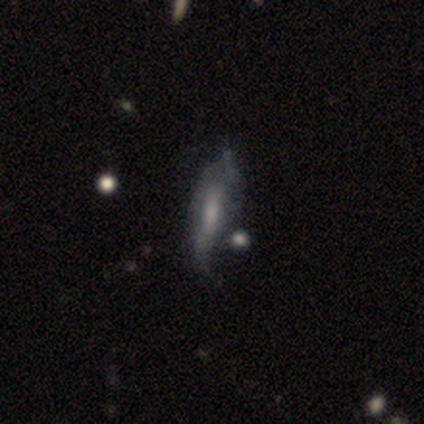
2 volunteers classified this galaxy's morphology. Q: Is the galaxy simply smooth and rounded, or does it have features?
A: smooth — 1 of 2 (50%, tied with featured or disk).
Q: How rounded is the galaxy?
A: in between — 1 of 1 (100%).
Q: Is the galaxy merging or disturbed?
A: none — 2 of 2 (100%).